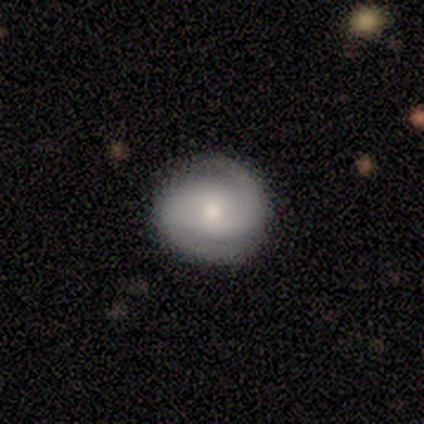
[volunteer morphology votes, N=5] featured or disk 80%, smooth 20%, star or artifact 0%. Down the decision tree: edge-on disk — no (100%); bar — no (75%); spiral arms — yes (100%); spiral arm count — 2 (100%); spiral winding — tight (50%, tied with medium); bulge size — moderate (50%, tied with small); merging — none (80%).